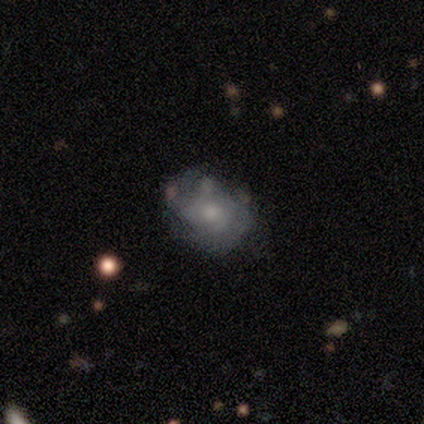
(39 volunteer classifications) Smooth or featured? 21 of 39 (54%) said featured or disk. Edge-on disk? 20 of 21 (95%) said no. Bar? 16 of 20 (80%) said no. Spiral arms? 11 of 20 (55%) said yes. Spiral winding? 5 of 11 (45%) said medium. Spiral arm count? 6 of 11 (55%) said can't tell. Bulge size? 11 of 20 (55%) said moderate. Merging? 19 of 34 (56%) said none.